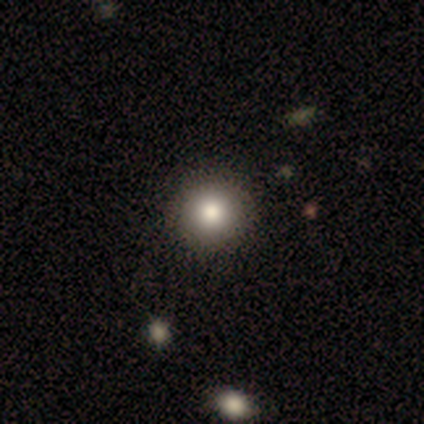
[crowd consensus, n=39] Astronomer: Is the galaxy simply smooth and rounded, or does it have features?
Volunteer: smooth — 85%.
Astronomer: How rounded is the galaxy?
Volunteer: round — 94%.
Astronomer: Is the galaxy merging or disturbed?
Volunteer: none — 64%.